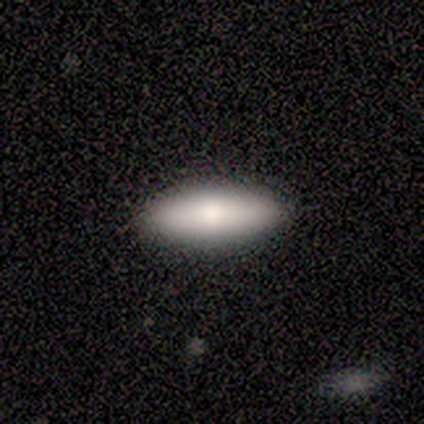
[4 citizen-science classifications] This is clearly a smooth galaxy (100%). How rounded: possibly in between (50%, tied with cigar-shaped). Merging: likely none (75%).